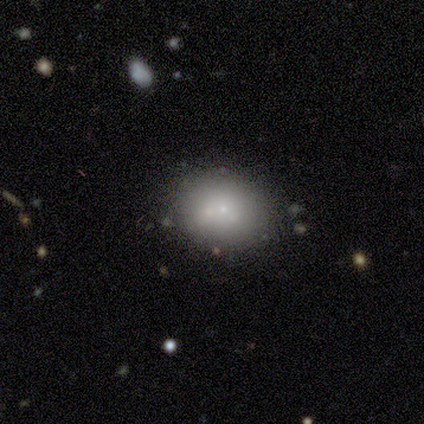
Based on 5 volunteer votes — This is likely a smooth galaxy (60%). How rounded: marginally round (33%, tied with in between and cigar-shaped). Merging: likely none (75%).